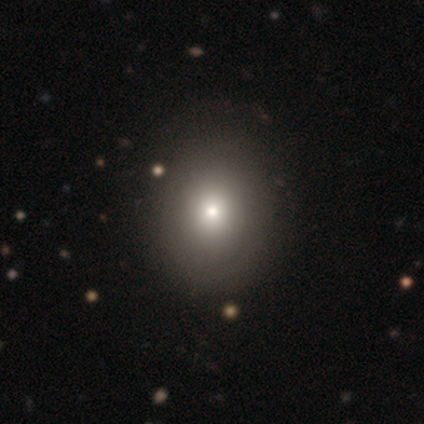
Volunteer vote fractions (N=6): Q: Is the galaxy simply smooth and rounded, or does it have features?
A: featured or disk — 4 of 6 (67%).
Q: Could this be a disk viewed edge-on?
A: no — 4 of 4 (100%).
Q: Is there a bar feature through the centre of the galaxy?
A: no — 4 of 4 (100%).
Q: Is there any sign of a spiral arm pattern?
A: yes — 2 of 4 (50%, tied with no).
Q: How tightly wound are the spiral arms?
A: tight — 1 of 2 (50%, tied with medium).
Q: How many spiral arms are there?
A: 1 — 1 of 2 (50%, tied with can't tell).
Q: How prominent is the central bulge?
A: moderate — 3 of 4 (75%).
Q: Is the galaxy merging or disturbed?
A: minor disturbance — 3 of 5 (60%).